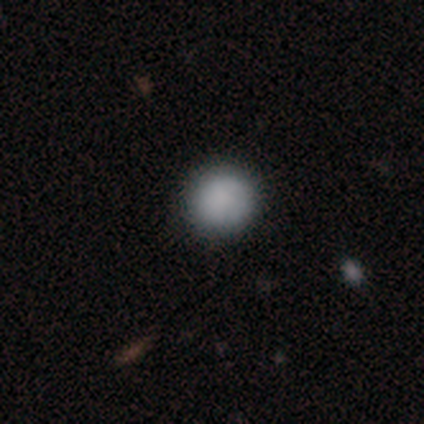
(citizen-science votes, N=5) Q: Smooth or featured?
A: smooth (80%); runner-up: star or artifact (20%)
Q: How rounded?
A: round (100%)
Q: Merging?
A: none (100%)